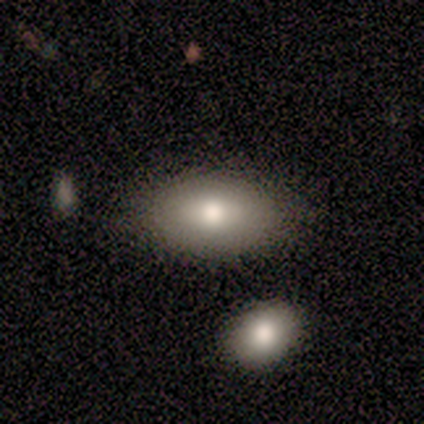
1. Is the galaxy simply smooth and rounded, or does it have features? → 80% smooth, 20% featured or disk, 0% star or artifact.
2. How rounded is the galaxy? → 100% in between, 0% round, 0% cigar-shaped.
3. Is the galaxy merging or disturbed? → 100% none, 0% minor disturbance, 0% major disturbance, 0% merger.